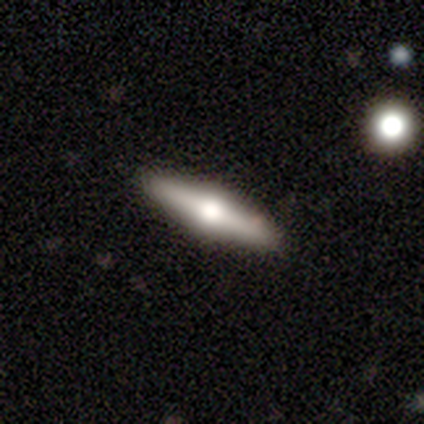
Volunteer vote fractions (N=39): Volunteers were most divided on "smooth or featured": featured or disk: 59%, smooth: 36%, star or artifact: 5%. More confident: edge-on disk — yes (100%); edge-on bulge — rounded (96%); merging — none (73%).